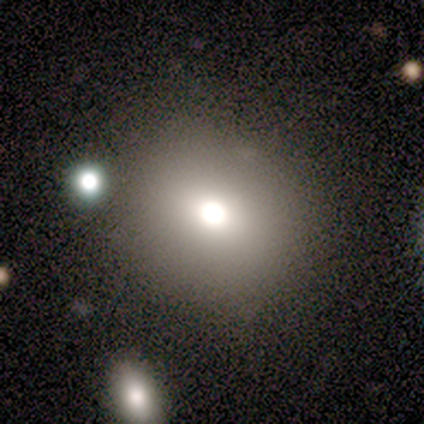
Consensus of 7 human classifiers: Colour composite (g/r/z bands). It shows a smooth galaxy with no disk features (71%) that is round (80%). Merging: none (43%).